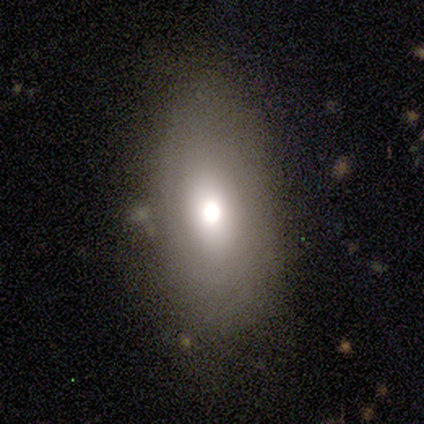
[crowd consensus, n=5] Smooth or featured: featured or disk — 60% (smooth — 40%)
Edge-on disk: no — 67% (yes — 33%)
Bar: no — 100%
Spiral arms: no — 100%
Bulge size: large — 100%
Merging: minor disturbance — 60% (none — 40%)